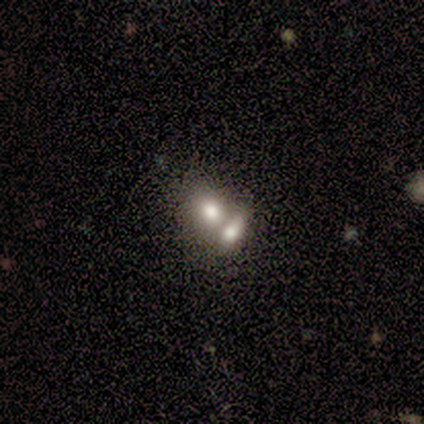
Smooth or featured?
  - smooth: 100% *
  - featured or disk: 0%
  - star or artifact: 0%
How rounded?
  - in between: 60% *
  - round: 40%
  - cigar-shaped: 0%
Merging?
  - merger: 60% *
  - none: 40%
  - minor disturbance: 0%
  - major disturbance: 0%